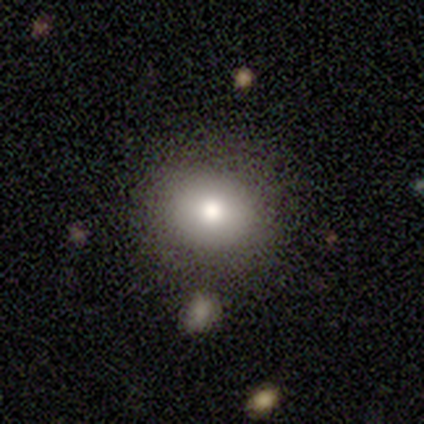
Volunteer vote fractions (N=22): This is clearly a smooth galaxy (95%). How rounded: clearly round (81%). Merging: clearly none (91%).